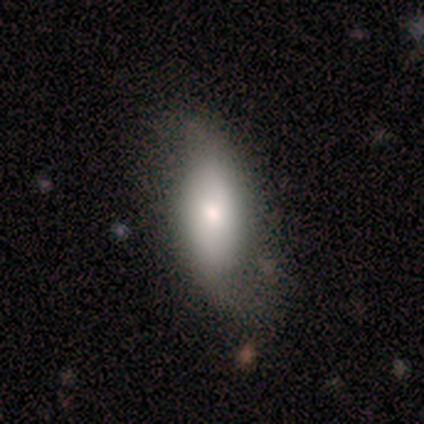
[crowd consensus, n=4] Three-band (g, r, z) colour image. It shows a smooth galaxy with no disk features (50%, tied with featured or disk) that is in between round and cigar-shaped (50%, tied with cigar-shaped). Merging: none (100%).